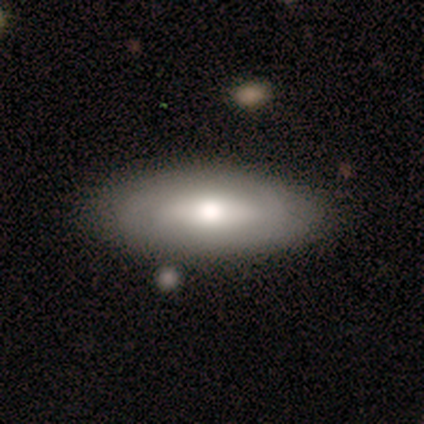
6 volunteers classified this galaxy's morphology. Smooth or featured? 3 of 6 (50%) said featured or disk. Edge-on disk? 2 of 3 (67%) said no. Bar? 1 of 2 (50%, tied with no) said weak. Spiral arms? 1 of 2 (50%, tied with no) said yes. Spiral winding? 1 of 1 (100%) said medium. Spiral arm count? 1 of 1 (100%) said 2. Bulge size? 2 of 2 (100%) said moderate. Merging? 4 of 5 (80%) said none.